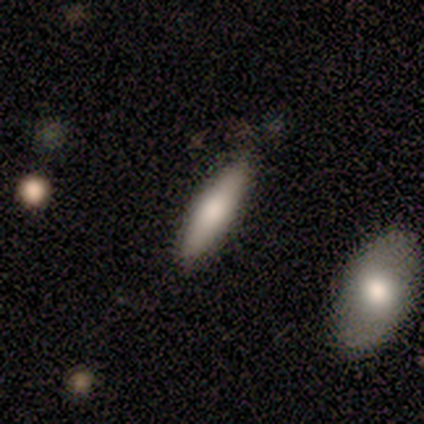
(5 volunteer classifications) Overall: featured or disk (60%; smooth 40%). Edge-on disk: yes (67%; no 33%). Edge-on bulge: none (50%, tied with rounded). Merging: none (60%; minor disturbance 40%).